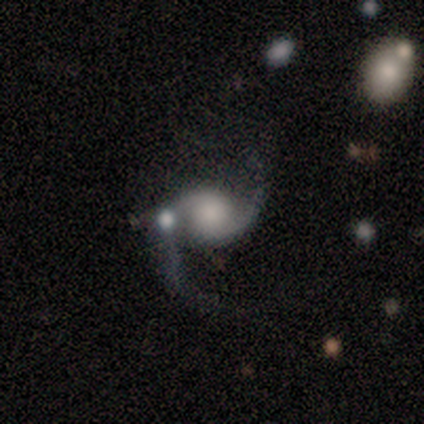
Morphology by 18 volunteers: Overall: featured or disk (89%). Edge-on disk: no (100%). Bar: no (88%). Spiral arms: yes (100%). Spiral arm count: 2 (100%). Spiral winding: loose (62%; medium 38%). Bulge size: large (25%, tied with none). Merging: none (65%).